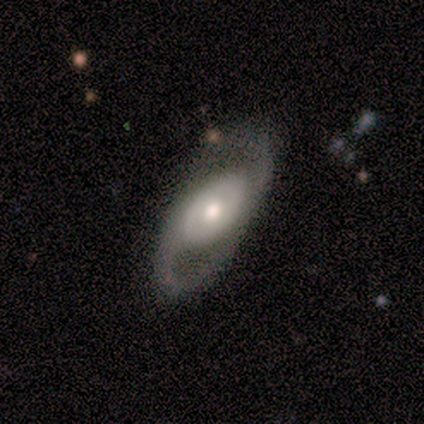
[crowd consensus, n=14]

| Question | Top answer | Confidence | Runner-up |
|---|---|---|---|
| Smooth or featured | featured or disk | 64% | smooth (36%) |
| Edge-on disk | no | 100% | — |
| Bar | no | 89% | weak (11%) |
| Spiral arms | no | 56% | yes (44%) |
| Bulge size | moderate | 56% | large (22%) |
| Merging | none | 86% | minor disturbance (14%) |